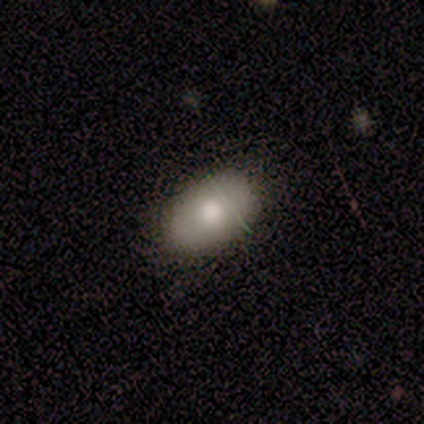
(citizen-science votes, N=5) smooth 100%, featured or disk 0%, star or artifact 0%. Down the decision tree: how rounded — in between (100%); merging — none (80%).